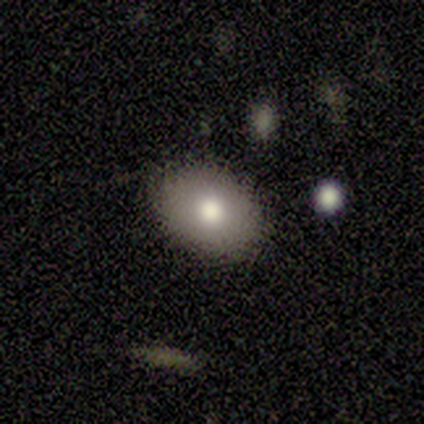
Smooth or featured? smooth (100%)
How rounded? in between (100%)
Merging? none (83%)